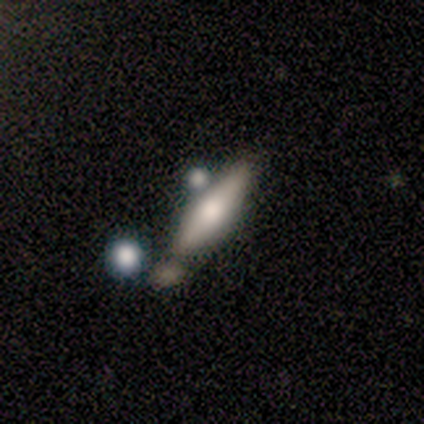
Smooth or featured?
  - featured or disk: 100% *
  - smooth: 0%
  - star or artifact: 0%
Edge-on disk?
  - yes: 100% *
  - no: 0%
Edge-on bulge?
  - rounded: 100% *
  - boxy: 0%
  - none: 0%
Merging?
  - minor disturbance: 100% *
  - none: 0%
  - major disturbance: 0%
  - merger: 0%